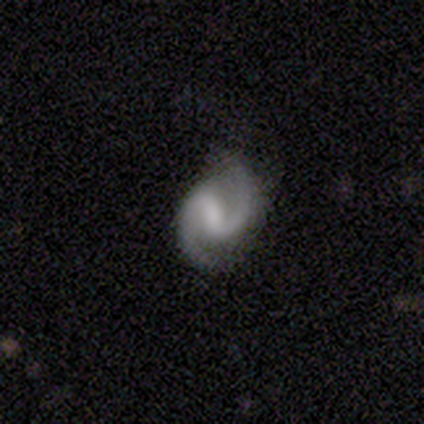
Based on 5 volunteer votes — Overall: featured or disk (100%). Edge-on disk: no (80%). Bar: weak (75%). Spiral arms: yes (100%). Spiral arm count: 2 (75%). Spiral winding: medium (75%). Bulge size: moderate (50%, tied with none). Merging: none (80%).